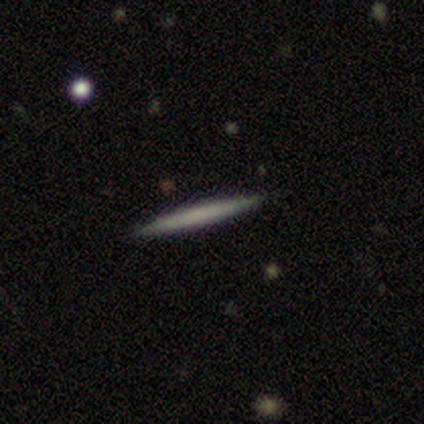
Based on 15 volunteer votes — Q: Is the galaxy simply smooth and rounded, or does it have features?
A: smooth — 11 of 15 (73%).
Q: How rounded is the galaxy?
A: cigar-shaped — 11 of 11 (100%).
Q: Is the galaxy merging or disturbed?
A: none — 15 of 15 (100%).